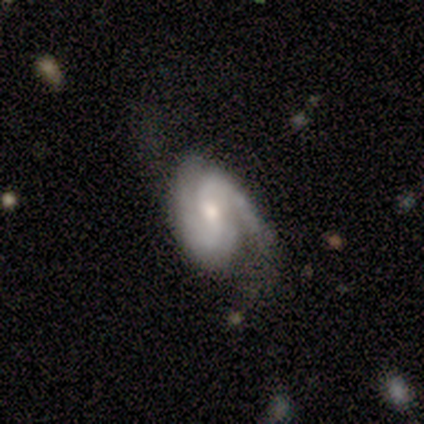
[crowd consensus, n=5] smooth_or_featured: featured or disk (p=1.00)
disk_edge_on: no (p=1.00)
bar: no (p=0.60) [alt: weak p=0.40]
has_spiral_arms: yes (p=1.00)
spiral_winding: medium (p=0.60) [alt: tight p=0.40]
spiral_arm_count: 2 (p=1.00)
bulge_size: moderate (p=0.60) [alt: small p=0.40]
merging: minor disturbance (p=0.60) [alt: none p=0.40]